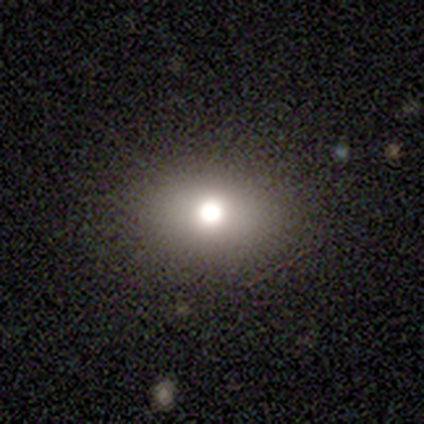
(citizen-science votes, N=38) Overall: smooth (68%). How rounded: in between (77%). Merging: none (94%).